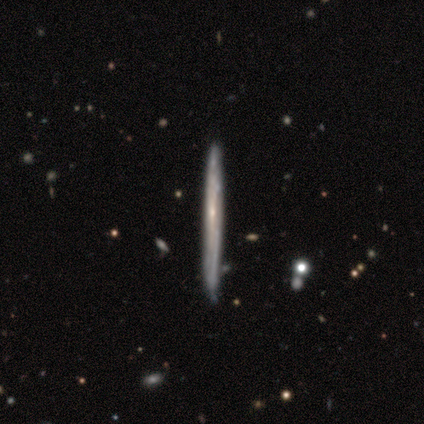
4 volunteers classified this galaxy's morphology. type=featured or disk (75%); edge-on=yes (67%); edge-on bulge=none (50%, tied with rounded); merging=none (75%).